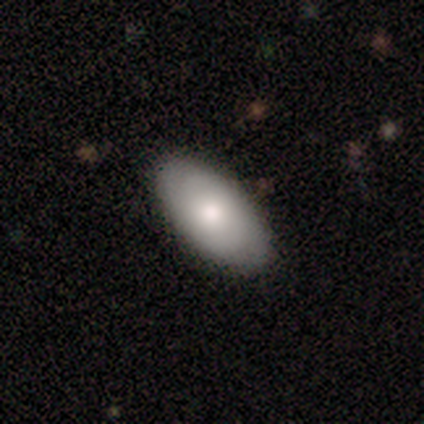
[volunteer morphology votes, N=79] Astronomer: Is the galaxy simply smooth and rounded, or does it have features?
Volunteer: smooth — 78%.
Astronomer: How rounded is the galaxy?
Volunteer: in between — 97%.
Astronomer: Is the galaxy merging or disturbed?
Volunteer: none — 40%.